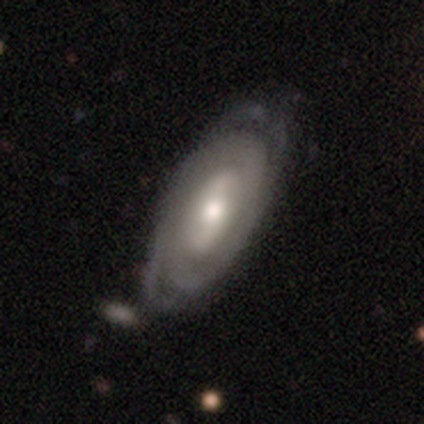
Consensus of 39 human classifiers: featured or disk 77%, smooth 18%, star or artifact 5%. Down the decision tree: edge-on disk — no (97%); bar — no (55%); spiral arms — yes (76%); spiral arm count — 2 (55%); spiral winding — tight (59%); bulge size — moderate (69%); merging — none (46%).